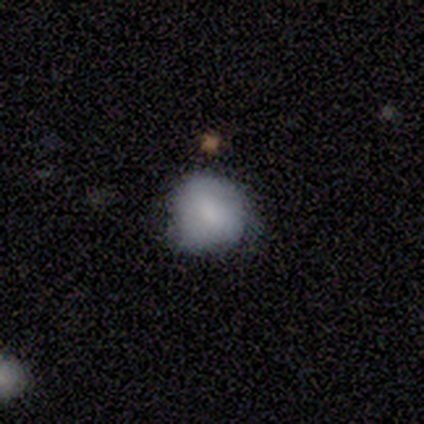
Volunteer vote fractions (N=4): Smooth or featured? 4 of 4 (100%) said smooth. How rounded? 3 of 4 (75%) said in between. Merging? 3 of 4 (75%) said none.